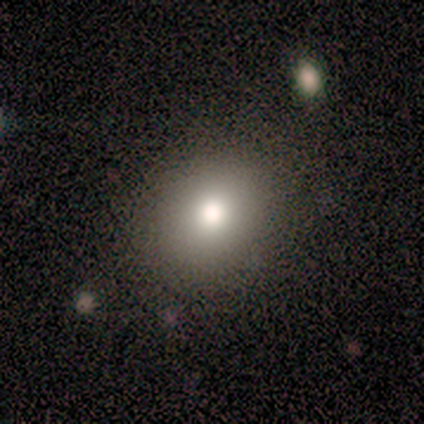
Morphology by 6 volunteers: A smooth galaxy with no disk features (67%) that is round (75%).

Vote fractions:
- Smooth or featured? smooth: 67% / featured or disk: 17% / star or artifact: 17%
- How rounded? round: 75% / in between: 25% / cigar-shaped: 0%
- Merging? none: 80% / minor disturbance: 20% / major disturbance: 0% / merger: 0%